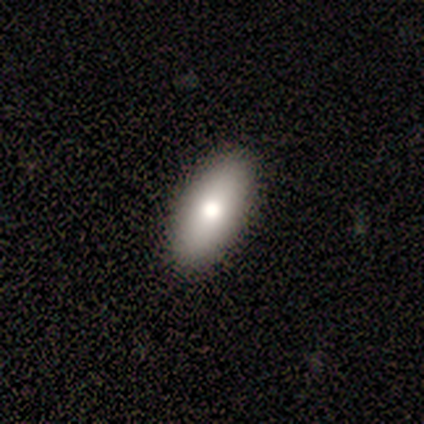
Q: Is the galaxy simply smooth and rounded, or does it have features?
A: smooth — 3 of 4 (75%).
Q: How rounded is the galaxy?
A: in between — 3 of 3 (100%).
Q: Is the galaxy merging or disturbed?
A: none — 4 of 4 (100%).